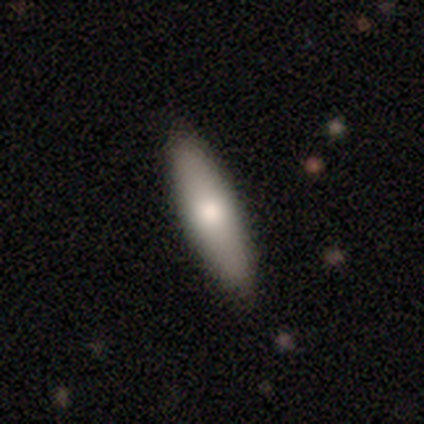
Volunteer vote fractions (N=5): Volunteers were most divided on "smooth or featured": smooth: 60%, featured or disk: 40%, star or artifact: 0%. More confident: how rounded — cigar-shaped (100%); merging — none (100%).